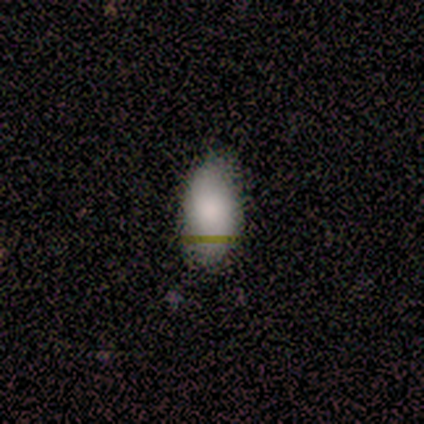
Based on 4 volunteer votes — Smooth or featured?
  - smooth: 100% *
  - featured or disk: 0%
  - star or artifact: 0%
How rounded?
  - in between: 100% *
  - round: 0%
  - cigar-shaped: 0%
Merging?
  - none: 100% *
  - minor disturbance: 0%
  - major disturbance: 0%
  - merger: 0%